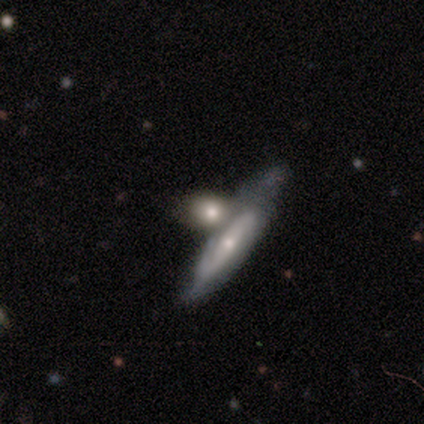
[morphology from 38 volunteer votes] Smooth or featured? 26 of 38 (68%) said featured or disk. Edge-on disk? 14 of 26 (54%) said no. Bar? 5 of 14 (36%, tied with no) said weak. Spiral arms? 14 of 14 (100%) said yes. Spiral winding? 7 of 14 (50%) said tight. Spiral arm count? 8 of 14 (57%) said 2. Bulge size? 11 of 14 (79%) said small. Merging? 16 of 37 (43%) said merger.